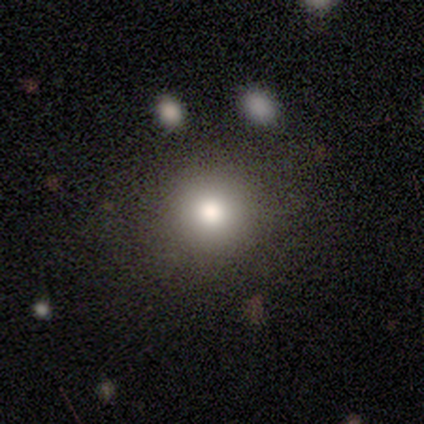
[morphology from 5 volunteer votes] type=smooth (100%); roundness=round (100%); merging=none (100%).